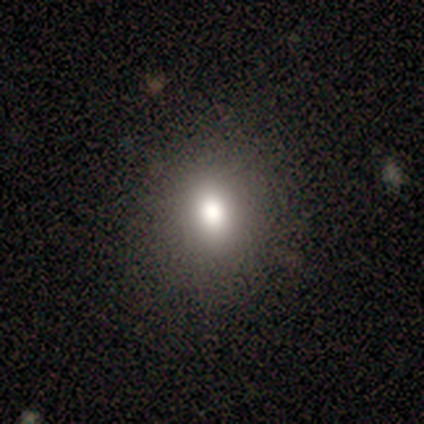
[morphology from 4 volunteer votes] smooth-or-featured: smooth: 75% | star or artifact: 25% | featured or disk: 0%
  how-rounded: in between: 67% | round: 33% | cigar-shaped: 0%
  merging: none: 100% | minor disturbance: 0% | major disturbance: 0% | merger: 0%